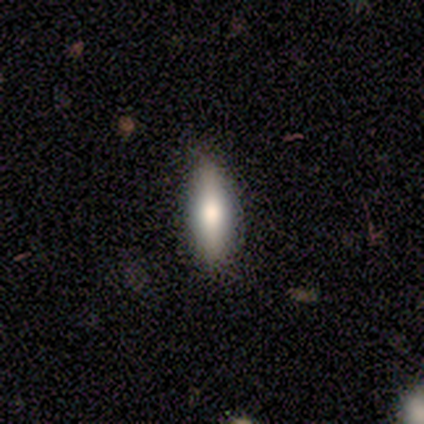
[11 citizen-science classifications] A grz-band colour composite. It shows a smooth galaxy with no disk features (73%) that is in between round and cigar-shaped (50%, tied with cigar-shaped). Merging: none (82%).